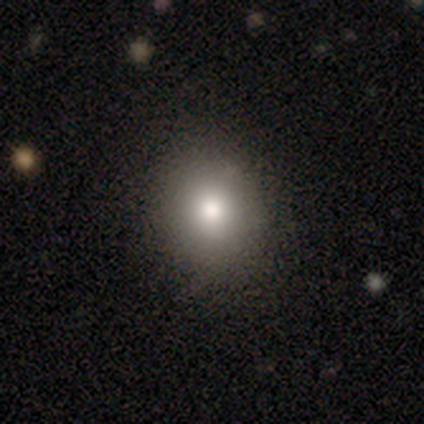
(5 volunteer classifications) A smooth galaxy with no disk features (60%) that is round (100%). Merging: none (60%).